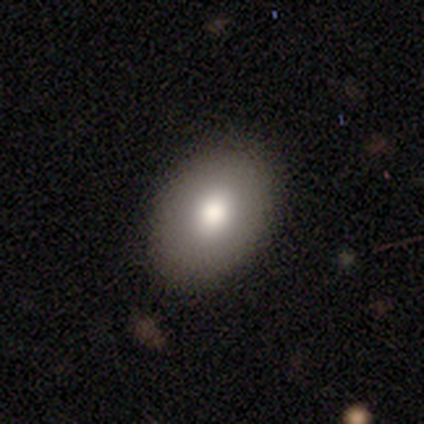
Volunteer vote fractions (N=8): Smooth or featured? 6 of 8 (75%) said smooth. How rounded? 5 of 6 (83%) said in between. Merging? 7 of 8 (88%) said none.